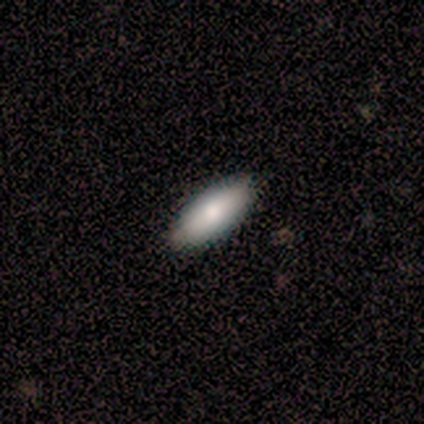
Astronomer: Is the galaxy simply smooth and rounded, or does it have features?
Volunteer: smooth — 75%.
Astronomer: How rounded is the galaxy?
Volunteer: in between — 100%.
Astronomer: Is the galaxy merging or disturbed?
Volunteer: none — 100%.